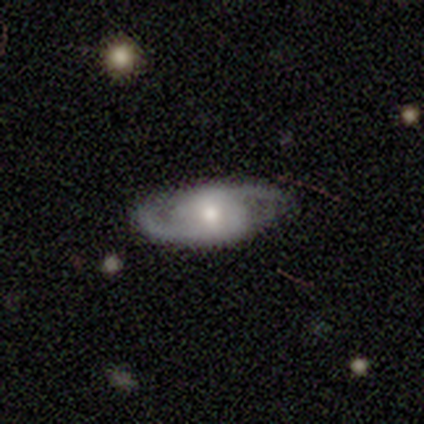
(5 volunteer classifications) Overall: featured or disk (60%; smooth 40%). Edge-on disk: no (100%). Bar: weak (67%; no 33%). Spiral arms: yes (67%; no 33%). Spiral arm count: 2 (100%). Spiral winding: medium (100%). Bulge size: large (33%, tied with moderate and small). Merging: none (60%; minor disturbance 40%).